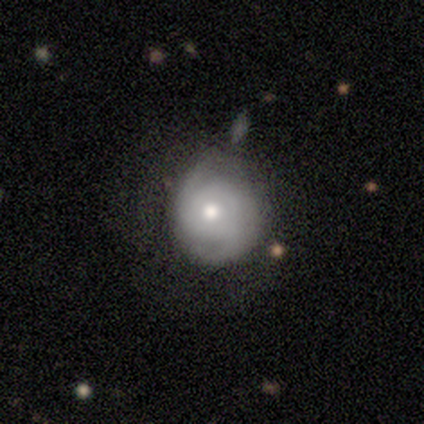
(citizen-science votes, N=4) Smooth or featured?
  - featured or disk: 75% *
  - smooth: 25%
  - star or artifact: 0%
Edge-on disk?
  - no: 100% *
  - yes: 0%
Bar?
  - no: 100% *
  - strong: 0%
  - weak: 0%
Spiral arms?
  - yes: 67% *
  - no: 33%
Spiral winding?
  - tight: 50% * (tied)
  - medium: 50% * (tied)
  - loose: 0%
Spiral arm count?
  - 2: 100% *
  - 1: 0%
  - 3: 0%
  - 4: 0%
  - more than 4: 0%
  - can't tell: 0%
Bulge size?
  - moderate: 100% *
  - dominant: 0%
  - large: 0%
  - small: 0%
  - none: 0%
Merging?
  - none: 75% *
  - minor disturbance: 25%
  - major disturbance: 0%
  - merger: 0%